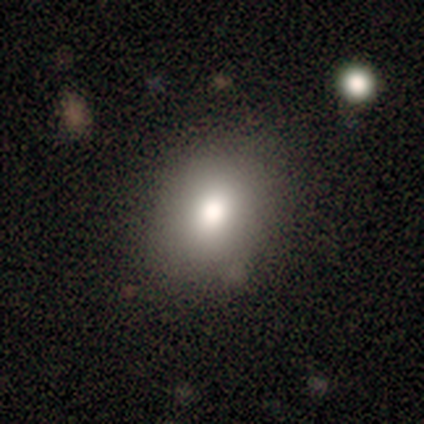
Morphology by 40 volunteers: Smooth or featured? smooth (95%)
How rounded? in between (66%)
Merging? none (85%)